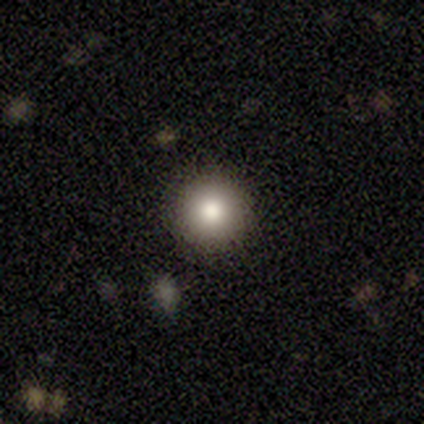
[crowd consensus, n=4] smooth 50%, featured or disk 25%, star or artifact 25%. Down the decision tree: how rounded — round (100%); merging — none (100%).